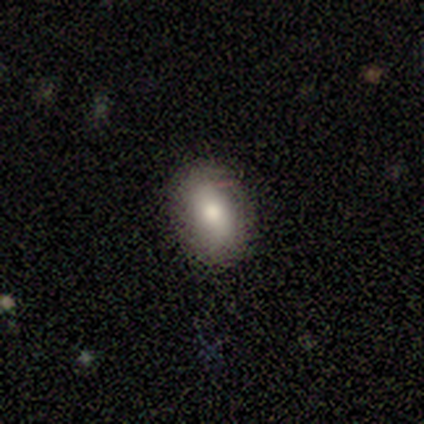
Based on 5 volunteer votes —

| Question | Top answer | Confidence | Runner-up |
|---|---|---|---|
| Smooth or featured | smooth | 100% | — |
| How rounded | in between | 100% | — |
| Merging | none | 80% | minor disturbance (20%) |